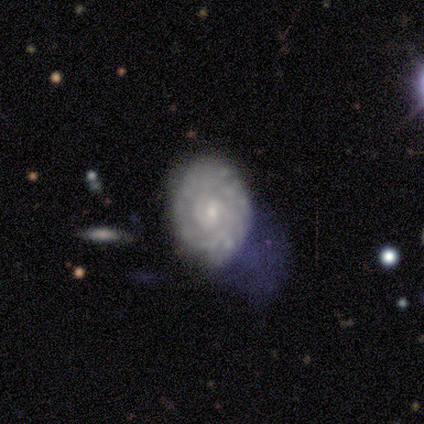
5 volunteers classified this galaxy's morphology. A featured or disk galaxy (60%) with a weak bar (67%), 2 (67%) medium (67%) spiral arms (100%) and a small central bulge (67%).

Vote fractions:
- Smooth or featured? featured or disk: 60% / smooth: 40% / star or artifact: 0%
- Edge-on disk? no: 100% / yes: 0%
- Bar? weak: 67% / no: 33% / strong: 0%
- Spiral arms? yes: 100% / no: 0%
- Spiral winding? medium: 67% / tight: 33% / loose: 0%
- Spiral arm count? 2: 67% / can't tell: 33% / 1: 0% / 3: 0% / 4: 0% / more than 4: 0%
- Bulge size? small: 67% / none: 33% / dominant: 0% / large: 0% / moderate: 0%
- Merging? none: 40% (tied) / minor disturbance: 40% (tied) / major disturbance: 20% / merger: 0%